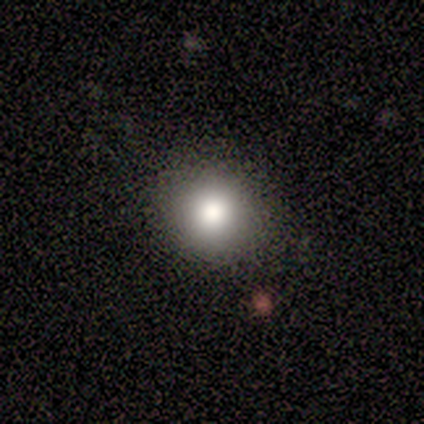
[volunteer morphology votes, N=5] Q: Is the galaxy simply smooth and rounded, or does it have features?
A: smooth — 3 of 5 (60%).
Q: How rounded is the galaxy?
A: round — 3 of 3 (100%).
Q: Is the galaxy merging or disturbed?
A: none — 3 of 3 (100%).